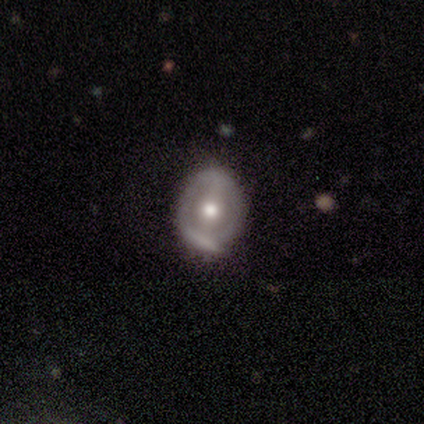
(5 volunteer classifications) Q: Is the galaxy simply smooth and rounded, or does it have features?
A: featured or disk — 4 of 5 (80%).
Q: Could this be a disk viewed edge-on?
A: no — 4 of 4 (100%).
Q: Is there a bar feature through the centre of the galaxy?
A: no — 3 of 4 (75%).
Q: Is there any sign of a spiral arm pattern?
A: no — 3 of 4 (75%).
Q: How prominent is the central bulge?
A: small — 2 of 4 (50%).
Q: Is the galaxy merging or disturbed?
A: minor disturbance — 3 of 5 (60%).